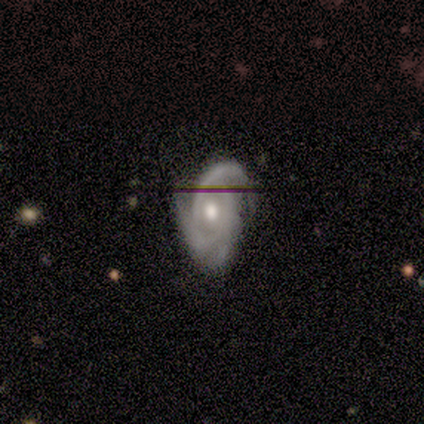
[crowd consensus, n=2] Q: Smooth or featured?
A: featured or disk (100%)
Q: Edge-on disk?
A: no (100%)
Q: Bar?
A: weak (50%); tied with: no (50%)
Q: Spiral arms?
A: yes (100%)
Q: Spiral winding?
A: tight (50%); tied with: medium (50%)
Q: Spiral arm count?
A: 2 (50%); tied with: can't tell (50%)
Q: Bulge size?
A: moderate (50%); tied with: small (50%)
Q: Merging?
A: none (100%)